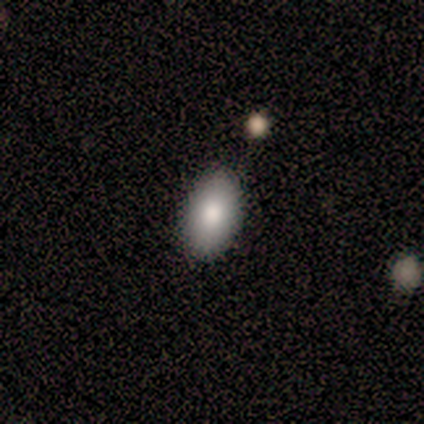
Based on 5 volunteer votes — This appears to be a smooth galaxy with no disk features (80%) that is in between round and cigar-shaped (100%). Merging: none (100%).